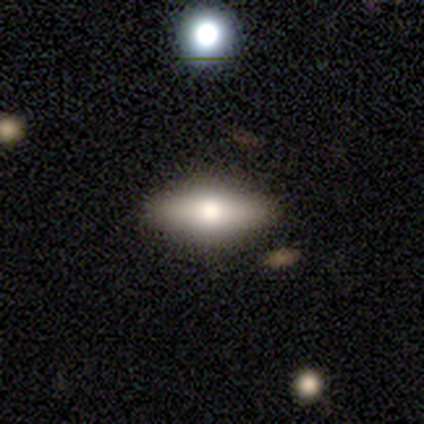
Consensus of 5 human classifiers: Smooth or featured: smooth — 60% (featured or disk — 40%)
How rounded: in between — 100%
Merging: none — 100%